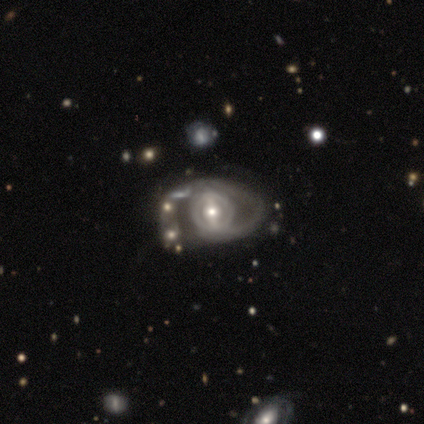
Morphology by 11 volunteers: Smooth or featured? 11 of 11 (100%) said featured or disk. Edge-on disk? 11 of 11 (100%) said no. Bar? 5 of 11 (45%) said no. Spiral arms? 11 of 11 (100%) said yes. Spiral winding? 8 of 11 (73%) said tight. Spiral arm count? 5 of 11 (45%) said 1. Bulge size? 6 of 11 (55%) said moderate. Merging? 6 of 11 (55%) said none.